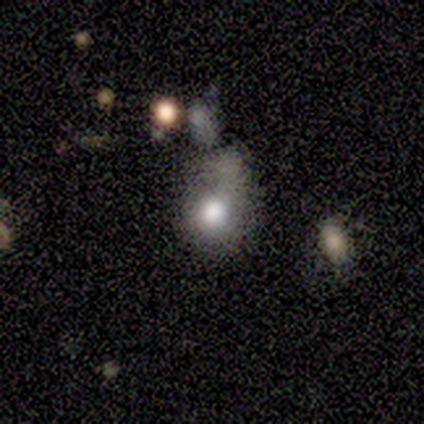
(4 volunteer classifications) This appears to be a smooth galaxy with no disk features (50%, tied with featured or disk) that is round (50%, tied with in between). Merging: major disturbance (50%).